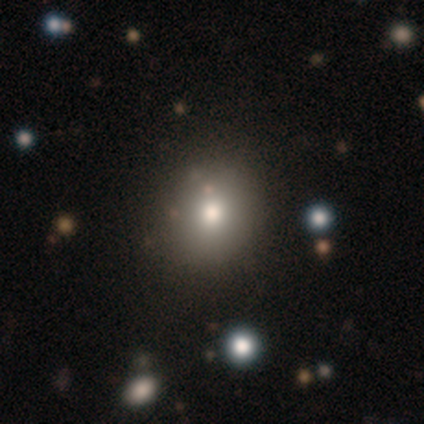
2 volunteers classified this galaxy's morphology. Volunteers were most divided on "bulge size" (2-way tie): large: 50%, moderate: 50%, dominant: 0%, small: 0%, none: 0%. More confident: smooth or featured — featured or disk (100%); edge-on disk — no (100%); bar — no (100%); spiral arms — no (100%); merging — minor disturbance (100%).